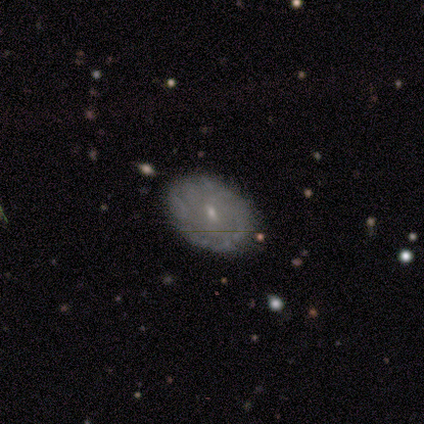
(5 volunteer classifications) Smooth or featured?
  - smooth: 40% * (tied)
  - featured or disk: 40% * (tied)
  - star or artifact: 20%
How rounded?
  - in between: 100% *
  - round: 0%
  - cigar-shaped: 0%
Merging?
  - none: 75% *
  - minor disturbance: 25%
  - major disturbance: 0%
  - merger: 0%